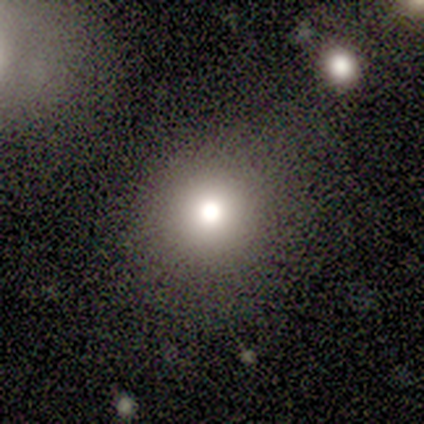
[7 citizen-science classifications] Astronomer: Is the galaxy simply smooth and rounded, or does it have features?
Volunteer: smooth — 100%.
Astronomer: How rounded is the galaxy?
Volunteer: round — 71%.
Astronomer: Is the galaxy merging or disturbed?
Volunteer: none — 100%.